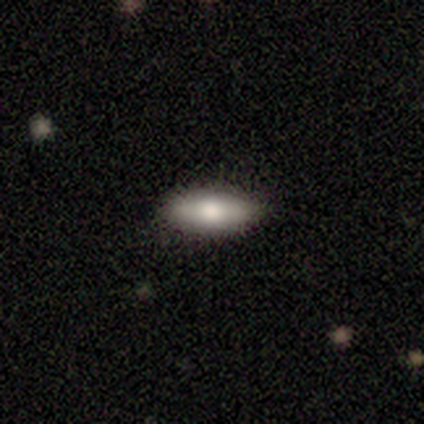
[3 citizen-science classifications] Smooth or featured?
  - smooth: 100% *
  - featured or disk: 0%
  - star or artifact: 0%
How rounded?
  - in between: 67% *
  - cigar-shaped: 33%
  - round: 0%
Merging?
  - none: 67% *
  - major disturbance: 33%
  - minor disturbance: 0%
  - merger: 0%